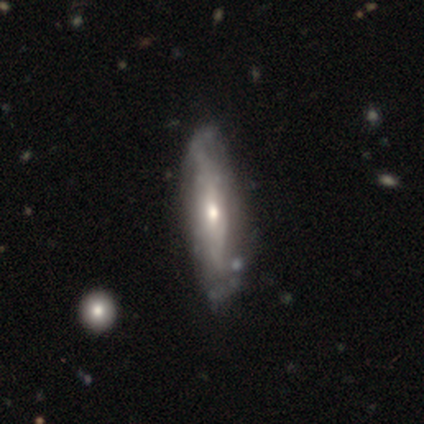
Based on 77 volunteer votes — Smooth or featured? featured or disk (70%)
Edge-on disk? no (67%)
Bar? no (72%)
Spiral arms? yes (72%)
Spiral winding? tight (35%, tied with medium)
Spiral arm count? can't tell (65%)
Bulge size? moderate (47%, tied with small)
Merging? none (41%)